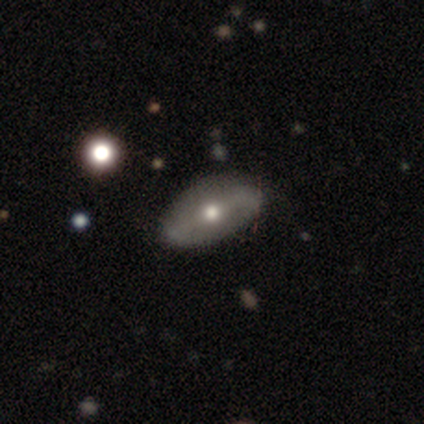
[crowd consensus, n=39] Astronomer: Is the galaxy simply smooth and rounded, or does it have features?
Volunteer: featured or disk — 69%.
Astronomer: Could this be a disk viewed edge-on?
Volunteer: no — 81%.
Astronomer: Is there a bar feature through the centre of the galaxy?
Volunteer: strong — 41%, tied with weak at 41%.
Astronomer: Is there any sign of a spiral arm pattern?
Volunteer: no — 73%.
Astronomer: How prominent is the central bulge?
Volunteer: moderate — 86%.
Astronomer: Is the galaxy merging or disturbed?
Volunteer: none — 55%.